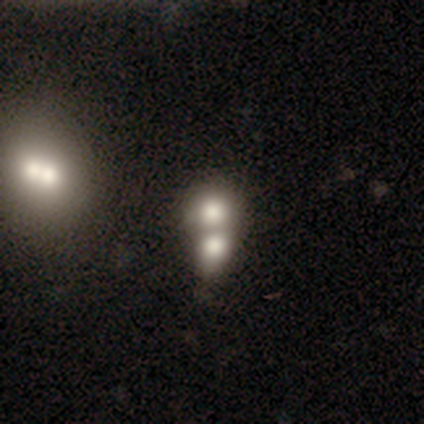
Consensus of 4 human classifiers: Q: Smooth or featured?
A: smooth (75%); runner-up: star or artifact (25%)
Q: How rounded?
A: round (100%)
Q: Merging?
A: none (33%); tied with: minor disturbance (33%); merger (33%)